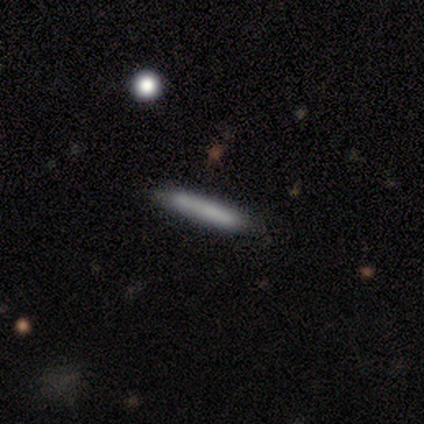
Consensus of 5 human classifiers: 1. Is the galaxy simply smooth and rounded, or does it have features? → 100% smooth, 0% featured or disk, 0% star or artifact.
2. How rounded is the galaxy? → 100% cigar-shaped, 0% round, 0% in between.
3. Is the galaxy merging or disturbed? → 80% none, 20% minor disturbance, 0% major disturbance, 0% merger.